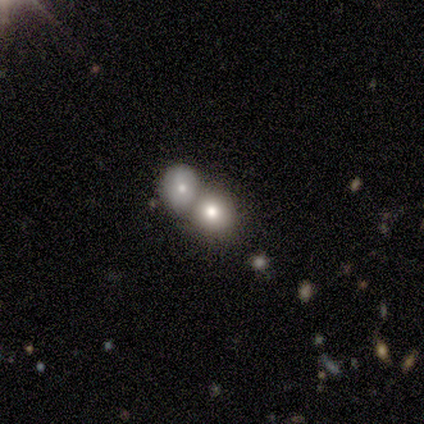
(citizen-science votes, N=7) smooth-or-featured: smooth: 57% | star or artifact: 29% | featured or disk: 14%
  how-rounded: round: 100% | in between: 0% | cigar-shaped: 0%
  merging: none: 40% (tied) | merger: 40% (tied) | minor disturbance: 20% | major disturbance: 0%